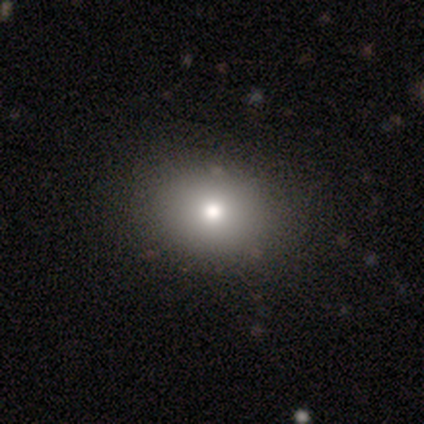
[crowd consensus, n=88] Q: Smooth or featured?
A: smooth (76%); runner-up: star or artifact (15%)
Q: How rounded?
A: in between (51%); runner-up: round (49%)
Q: Merging?
A: none (89%); runner-up: minor disturbance (7%)